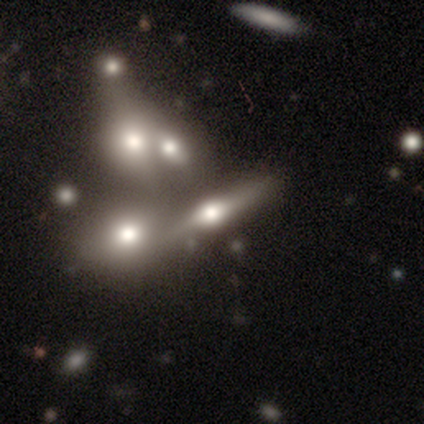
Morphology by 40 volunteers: type=featured or disk (62%); edge-on=yes (96%); edge-on bulge=rounded (100%); merging=merger (51%).